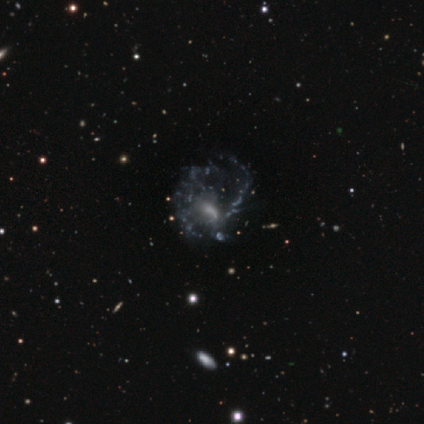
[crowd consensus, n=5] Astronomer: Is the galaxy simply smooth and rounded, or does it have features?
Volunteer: featured or disk — 80%.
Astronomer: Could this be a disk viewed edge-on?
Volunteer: no — 100%.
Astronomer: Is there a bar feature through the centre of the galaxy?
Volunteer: weak — 100%.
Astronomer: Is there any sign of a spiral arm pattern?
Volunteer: yes — 50%, tied with no at 50%.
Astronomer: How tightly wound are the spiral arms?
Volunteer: medium — 50%, tied with loose at 50%.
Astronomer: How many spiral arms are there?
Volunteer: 2 — 50%, tied with can't tell at 50%.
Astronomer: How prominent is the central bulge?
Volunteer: none — 50%.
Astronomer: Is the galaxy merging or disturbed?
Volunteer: major disturbance — 60%.